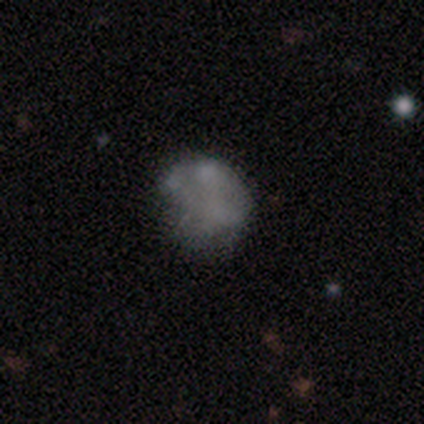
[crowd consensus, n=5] Overall: smooth (80%). How rounded: round (100%). Merging: none (60%; minor disturbance 20%).